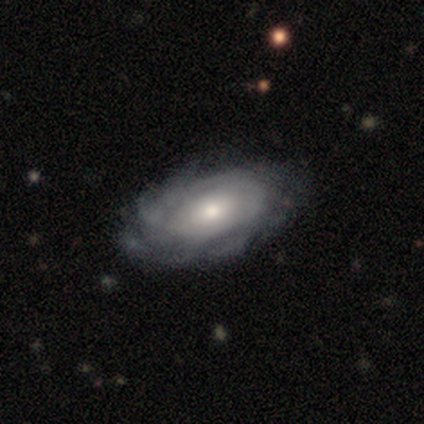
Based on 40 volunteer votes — A featured or disk galaxy (80%) with no bar (90%), tight (61%) spiral arms (90%) and a moderate central bulge (58%).

Vote fractions:
- Smooth or featured? featured or disk: 80% / star or artifact: 12% / smooth: 8%
- Edge-on disk? no: 97% / yes: 3%
- Bar? no: 90% / weak: 6% / strong: 3%
- Spiral arms? yes: 90% / no: 10%
- Spiral winding? tight: 61% / medium: 21% / loose: 18%
- Spiral arm count? can't tell: 57% / more than 4: 29% / 2: 7% / 3: 7% / 1: 0% / 4: 0%
- Bulge size? moderate: 58% / small: 23% / large: 16% / dominant: 3% / none: 0%
- Merging? none: 69% / minor disturbance: 26% / major disturbance: 6% / merger: 0%